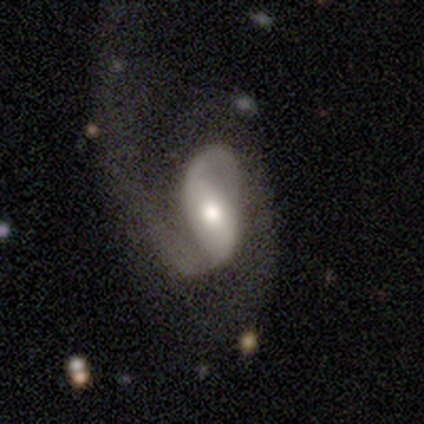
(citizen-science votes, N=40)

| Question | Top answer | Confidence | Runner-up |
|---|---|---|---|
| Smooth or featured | featured or disk | 75% | smooth (18%) |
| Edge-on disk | no | 97% | yes (3%) |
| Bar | strong | 38% | tied: weak (38%) |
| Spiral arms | yes | 97% | no (3%) |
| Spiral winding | loose | 68% | medium (25%) |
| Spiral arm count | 2 | 86% | 1 (14%) |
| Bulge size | moderate | 59% | large (38%) |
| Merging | major disturbance | 46% | none (22%) |